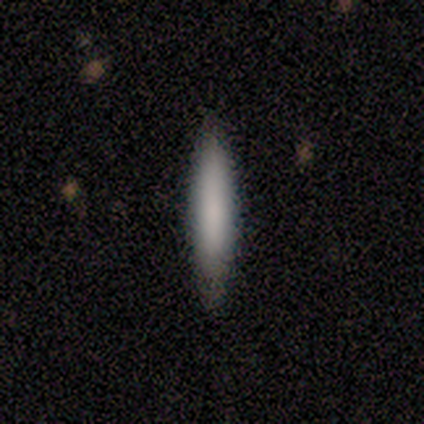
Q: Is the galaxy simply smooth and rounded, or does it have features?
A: smooth — 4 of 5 (80%).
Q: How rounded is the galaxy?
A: cigar-shaped — 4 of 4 (100%).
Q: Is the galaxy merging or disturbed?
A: none — 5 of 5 (100%).